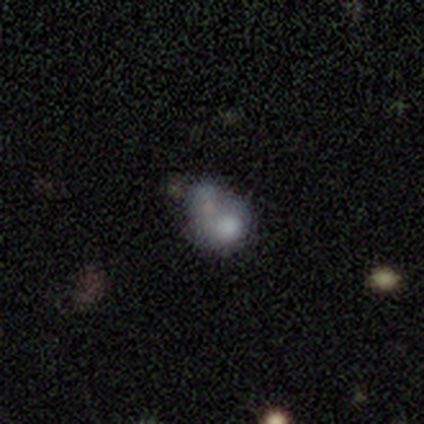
A smooth galaxy with no disk features (100%) that is round (75%).

Vote fractions:
- Smooth or featured? smooth: 100% / featured or disk: 0% / star or artifact: 0%
- How rounded? round: 75% / in between: 25% / cigar-shaped: 0%
- Merging? merger: 50% / minor disturbance: 25% / major disturbance: 25% / none: 0%